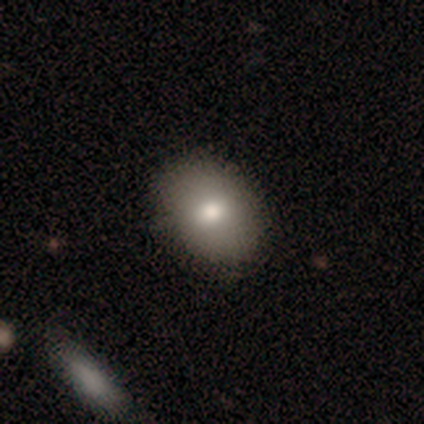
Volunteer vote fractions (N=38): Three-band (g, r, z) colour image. It shows a smooth galaxy with no disk features (74%) that is in between round and cigar-shaped (68%). Merging: none (57%).